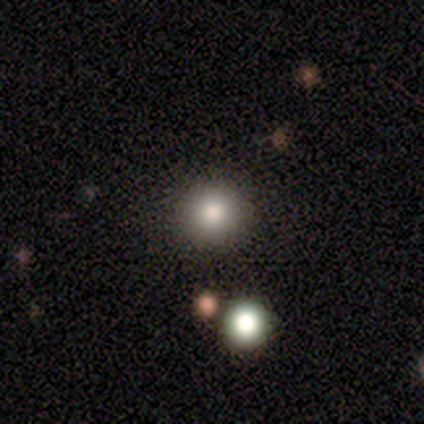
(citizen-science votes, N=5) Overall: smooth (100%). How rounded: round (100%). Merging: none (100%).